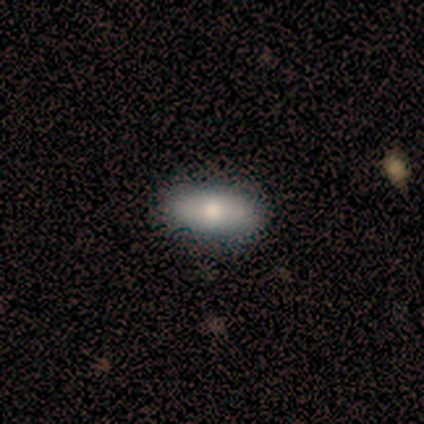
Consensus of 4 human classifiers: smooth-or-featured: smooth: 100% | featured or disk: 0% | star or artifact: 0%
  how-rounded: in between: 100% | round: 0% | cigar-shaped: 0%
  merging: none: 100% | minor disturbance: 0% | major disturbance: 0% | merger: 0%